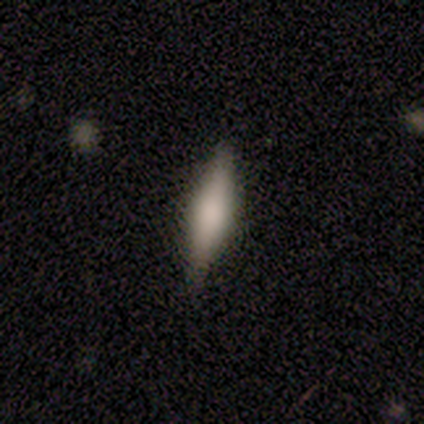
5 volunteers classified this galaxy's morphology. Overall: featured or disk (60%; smooth 40%). Edge-on disk: yes (100%). Edge-on bulge: boxy (33%, tied with none and rounded). Merging: none (100%).